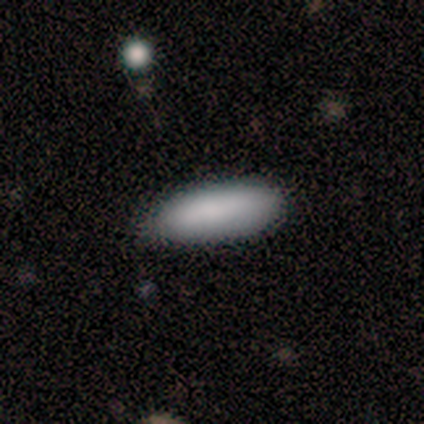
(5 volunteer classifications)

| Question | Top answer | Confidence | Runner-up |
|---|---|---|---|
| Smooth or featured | smooth | 80% | star or artifact (20%) |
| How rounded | in between | 50% | tied: cigar-shaped (50%) |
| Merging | minor disturbance | 75% | none (25%) |